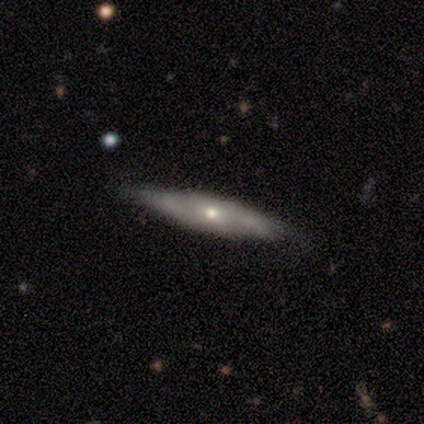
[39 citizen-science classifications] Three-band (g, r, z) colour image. It shows a smooth galaxy with no disk features (49%) that is cigar-shaped (79%). Merging: none (86%).